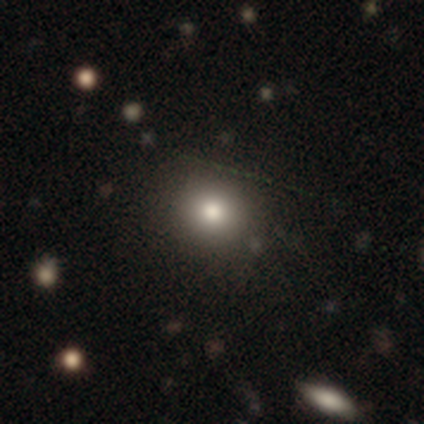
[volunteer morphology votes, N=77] smooth 82%, star or artifact 10%, featured or disk 8%. Down the decision tree: how rounded — round (89%); merging — none (46%).